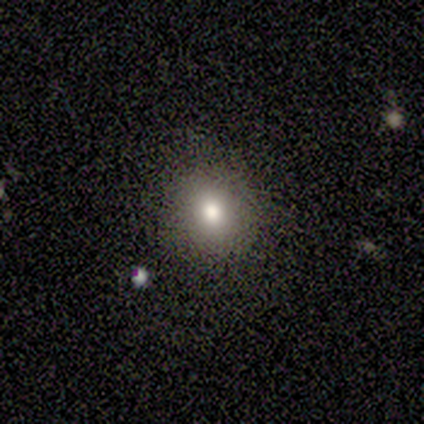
smooth_or_featured: smooth (p=0.73) [alt: featured or disk p=0.20]
how_rounded: round (p=0.82) [alt: in between p=0.18]
merging: none (p=0.93) [alt: major disturbance p=0.07]